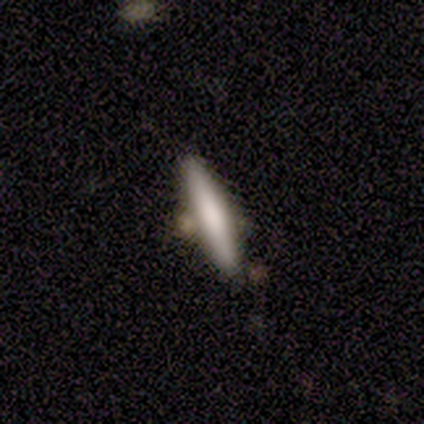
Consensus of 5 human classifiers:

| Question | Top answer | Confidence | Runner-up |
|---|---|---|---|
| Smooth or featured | smooth | 60% | featured or disk (40%) |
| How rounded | cigar-shaped | 100% | — |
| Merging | none | 60% | minor disturbance (20%) |